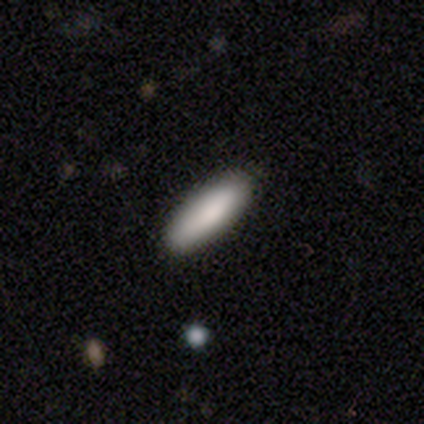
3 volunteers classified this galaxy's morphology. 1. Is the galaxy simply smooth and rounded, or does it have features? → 100% smooth, 0% featured or disk, 0% star or artifact.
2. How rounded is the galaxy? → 67% in between, 33% cigar-shaped, 0% round.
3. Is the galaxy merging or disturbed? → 67% none, 33% minor disturbance, 0% major disturbance, 0% merger.